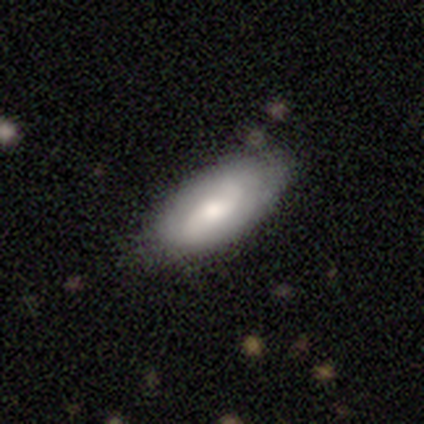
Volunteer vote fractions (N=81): featured or disk 49%, smooth 46%, star or artifact 5%. Down the decision tree: edge-on disk — no (98%); bar — no (49%); spiral arms — yes (82%); spiral arm count — 2 (78%); spiral winding — loose (56%); bulge size — moderate (54%); merging — none (38%).